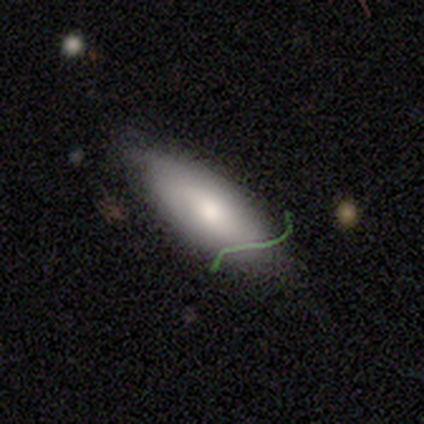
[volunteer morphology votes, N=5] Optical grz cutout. It shows a smooth galaxy with no disk features (100%) that is in between round and cigar-shaped (100%). Merging: none (100%).